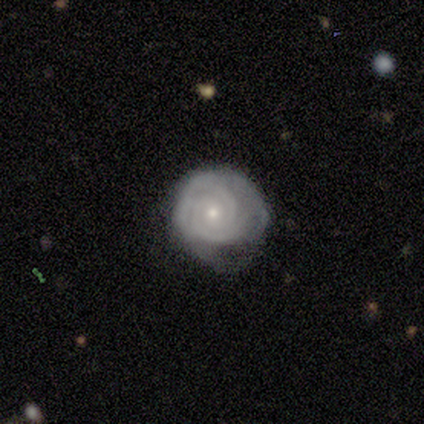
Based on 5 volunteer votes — Smooth or featured?
  - featured or disk: 100% *
  - smooth: 0%
  - star or artifact: 0%
Edge-on disk?
  - no: 100% *
  - yes: 0%
Bar?
  - no: 80% *
  - weak: 20%
  - strong: 0%
Spiral arms?
  - yes: 100% *
  - no: 0%
Spiral winding?
  - tight: 100% *
  - medium: 0%
  - loose: 0%
Spiral arm count?
  - 2: 60% *
  - 3: 20%
  - can't tell: 20%
  - 1: 0%
  - 4: 0%
  - more than 4: 0%
Bulge size?
  - moderate: 60% *
  - small: 40%
  - dominant: 0%
  - large: 0%
  - none: 0%
Merging?
  - minor disturbance: 60% *
  - none: 40%
  - major disturbance: 0%
  - merger: 0%